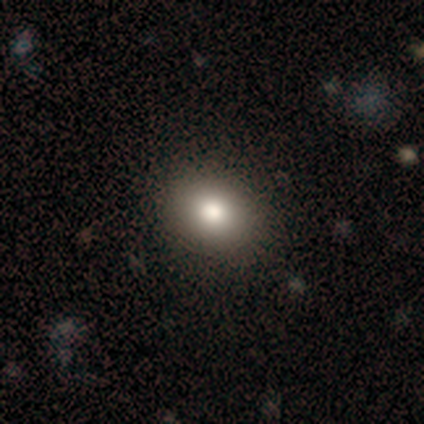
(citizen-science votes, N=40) A smooth galaxy with no disk features (78%) that is in between round and cigar-shaped (52%).

Vote fractions:
- Smooth or featured? smooth: 78% / featured or disk: 15% / star or artifact: 8%
- How rounded? in between: 52% / round: 48% / cigar-shaped: 0%
- Merging? none: 73% / minor disturbance: 3% / merger: 3% / major disturbance: 0%